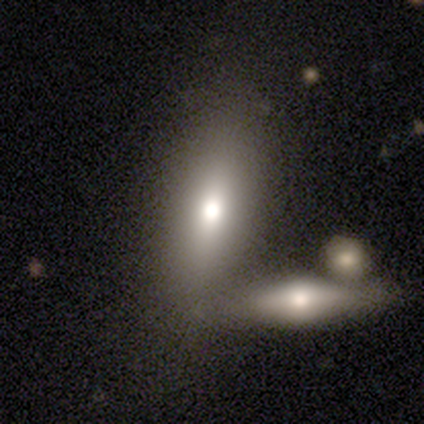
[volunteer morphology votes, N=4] A smooth galaxy with no disk features (75%) that is in between round and cigar-shaped (67%). Merging: none (50%, tied with merger).